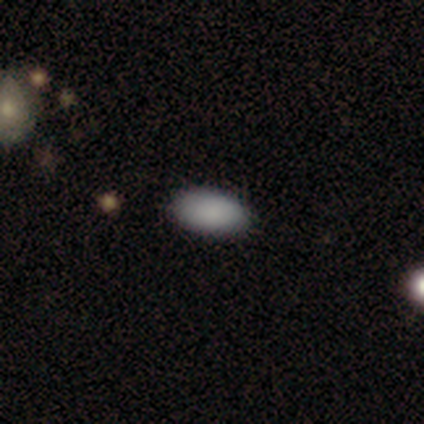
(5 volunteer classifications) Smooth or featured?
  - smooth: 100% *
  - featured or disk: 0%
  - star or artifact: 0%
How rounded?
  - in between: 100% *
  - round: 0%
  - cigar-shaped: 0%
Merging?
  - none: 100% *
  - minor disturbance: 0%
  - major disturbance: 0%
  - merger: 0%